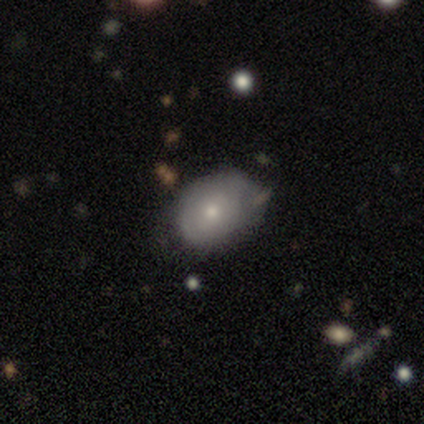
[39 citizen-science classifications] This appears to be a smooth galaxy with no disk features (54%) that is in between round and cigar-shaped (67%). Merging: none (72%).